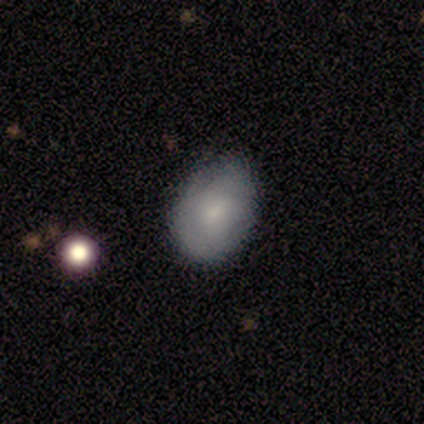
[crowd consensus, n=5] Overall: smooth (100%). How rounded: in between (100%). Merging: none (60%; minor disturbance 40%).